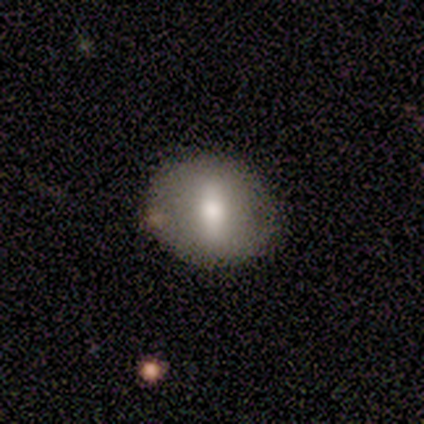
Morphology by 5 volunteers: Smooth or featured? 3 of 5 (60%) said smooth. How rounded? 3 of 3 (100%) said round. Merging? 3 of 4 (75%) said none.